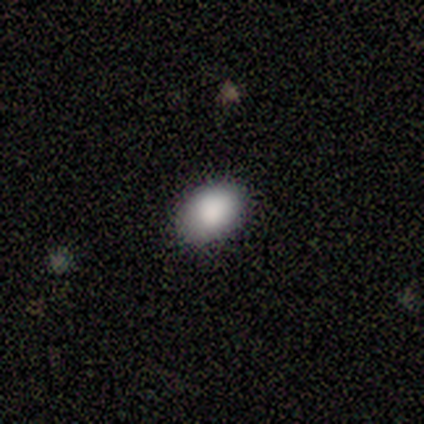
Morphology: type=smooth (80%); roundness=in between (100%); merging=none (100%).